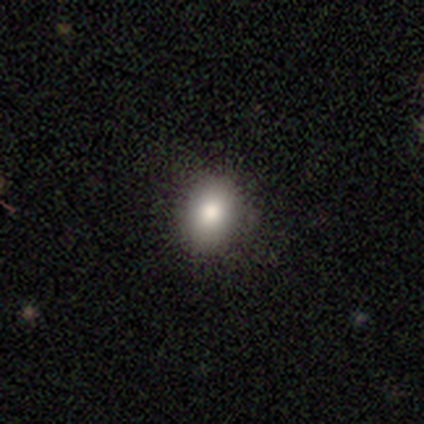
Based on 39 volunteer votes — Smooth or featured? smooth (87%)
How rounded? in between (53%)
Merging? none (82%)